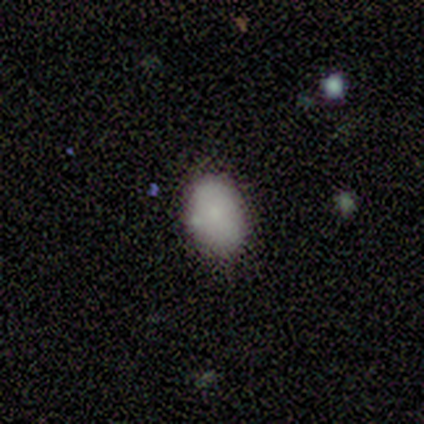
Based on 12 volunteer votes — smooth 92%, star or artifact 8%, featured or disk 0%. Down the decision tree: how rounded — in between (82%); merging — none (82%).